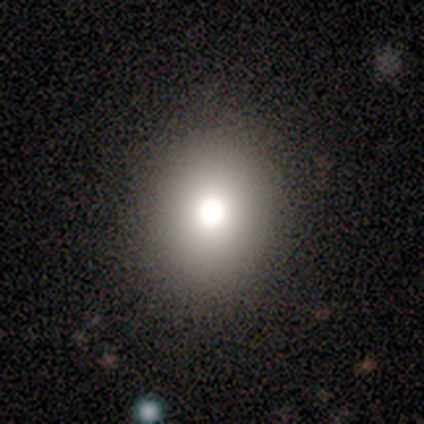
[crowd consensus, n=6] This is clearly a smooth galaxy (83%). How rounded: likely round (60%). Merging: clearly none (83%).